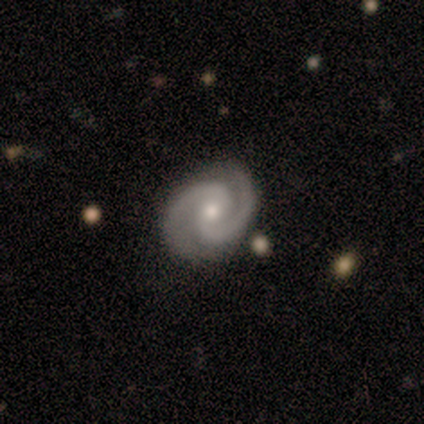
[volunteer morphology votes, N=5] Smooth or featured? 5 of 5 (100%) said featured or disk. Edge-on disk? 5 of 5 (100%) said no. Bar? 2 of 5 (40%, tied with no) said weak. Spiral arms? 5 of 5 (100%) said yes. Spiral winding? 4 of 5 (80%) said tight. Spiral arm count? 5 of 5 (100%) said 2. Bulge size? 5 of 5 (100%) said moderate. Merging? 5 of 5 (100%) said none.